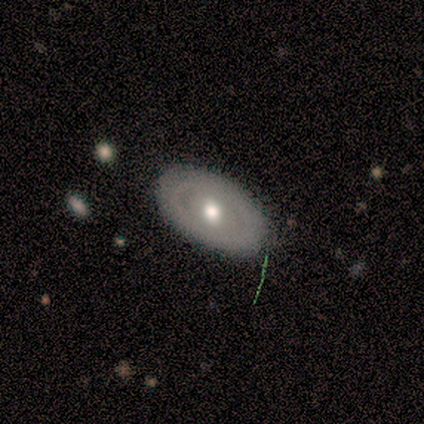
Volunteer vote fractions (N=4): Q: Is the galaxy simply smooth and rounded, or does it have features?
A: featured or disk — 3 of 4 (75%).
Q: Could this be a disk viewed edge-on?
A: no — 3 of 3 (100%).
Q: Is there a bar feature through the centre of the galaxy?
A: no — 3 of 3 (100%).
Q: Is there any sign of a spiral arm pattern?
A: no — 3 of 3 (100%).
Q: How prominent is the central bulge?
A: moderate — 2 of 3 (67%).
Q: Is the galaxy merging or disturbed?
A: none — 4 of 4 (100%).